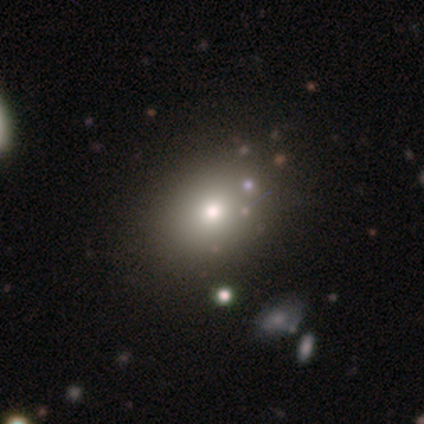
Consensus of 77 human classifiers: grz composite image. It shows a smooth galaxy with no disk features (74%) that is in between round and cigar-shaped (68%). Merging: none (44%).